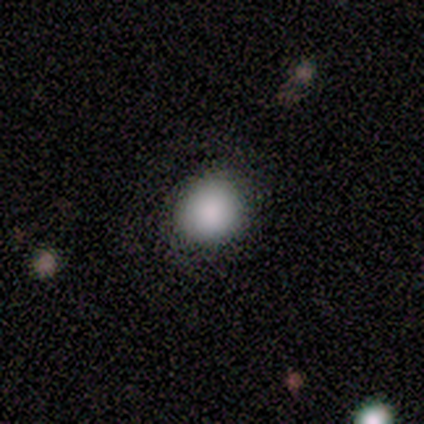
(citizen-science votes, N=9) Smooth or featured: smooth — 89% (featured or disk — 11%)
How rounded: round — 100%
Merging: none — 100%